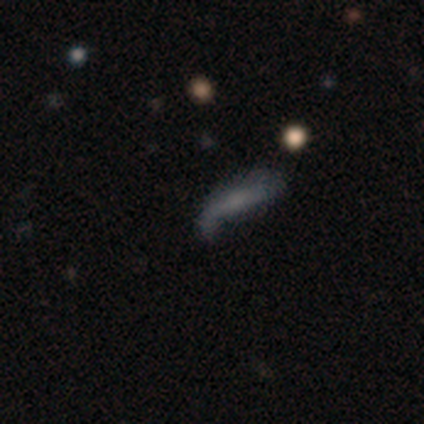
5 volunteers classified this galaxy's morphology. Smooth or featured?
  - featured or disk: 60% *
  - smooth: 40%
  - star or artifact: 0%
Edge-on disk?
  - yes: 67% *
  - no: 33%
Edge-on bulge?
  - none: 50% * (tied)
  - rounded: 50% * (tied)
  - boxy: 0%
Merging?
  - minor disturbance: 60% *
  - major disturbance: 20%
  - merger: 20%
  - none: 0%